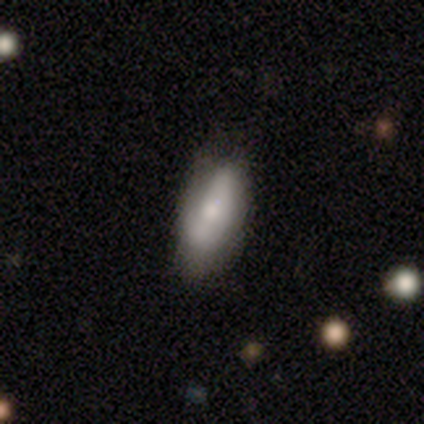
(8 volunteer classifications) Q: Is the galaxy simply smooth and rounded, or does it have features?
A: smooth — 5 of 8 (62%).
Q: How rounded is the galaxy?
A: in between — 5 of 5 (100%).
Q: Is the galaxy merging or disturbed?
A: none — 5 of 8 (62%).